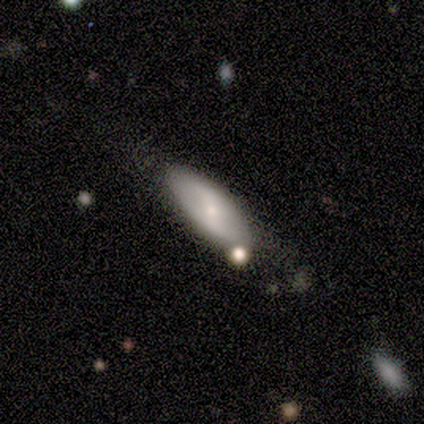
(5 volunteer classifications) smooth-or-featured: featured or disk: 60% | smooth: 20% | star or artifact: 20%
  disk-edge-on: no: 100% | yes: 0%
    bar: strong: 33% (tied) | weak: 33% (tied) | no: 33% (tied)
    has-spiral-arms: yes: 67% | no: 33%
      spiral-winding: tight: 50% (tied) | medium: 50% (tied) | loose: 0%
      spiral-arm-count: 2: 100% | 1: 0% | 3: 0% | 4: 0% | more than 4: 0% | can't tell: 0%
    bulge-size: small: 100% | dominant: 0% | large: 0% | moderate: 0% | none: 0%
  merging: none: 100% | minor disturbance: 0% | major disturbance: 0% | merger: 0%